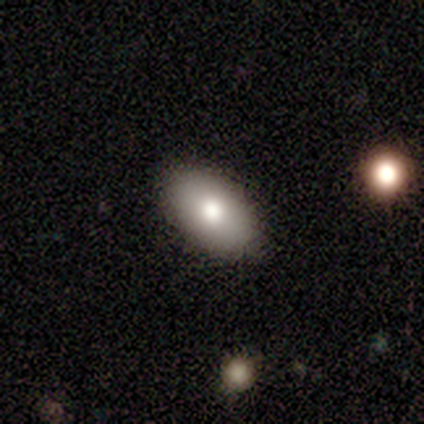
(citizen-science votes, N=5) Morphology: type=smooth (80%); roundness=in between (100%); merging=none (100%).